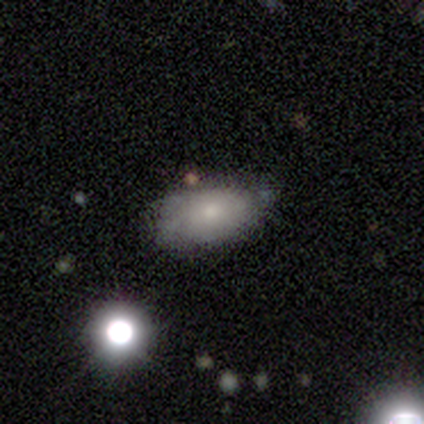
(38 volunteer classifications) Overall: smooth (63%). How rounded: in between (83%). Merging: none (53%; minor disturbance 38%).